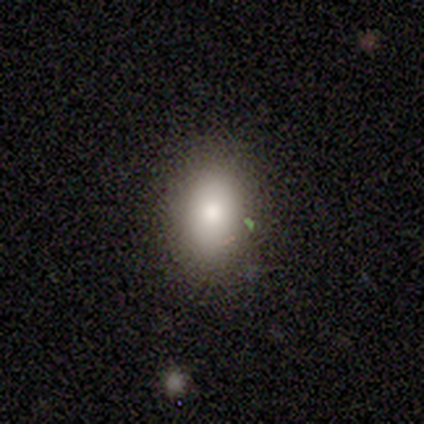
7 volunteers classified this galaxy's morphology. smooth_or_featured: smooth (p=0.71) [alt: star or artifact p=0.29]
how_rounded: in between (p=1.00)
merging: none (p=1.00)